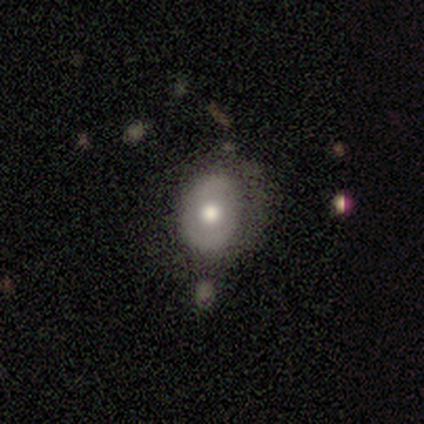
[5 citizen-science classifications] Smooth or featured?
  - smooth: 80% *
  - featured or disk: 20%
  - star or artifact: 0%
How rounded?
  - round: 50% * (tied)
  - in between: 50% * (tied)
  - cigar-shaped: 0%
Merging?
  - none: 80% *
  - major disturbance: 20%
  - minor disturbance: 0%
  - merger: 0%